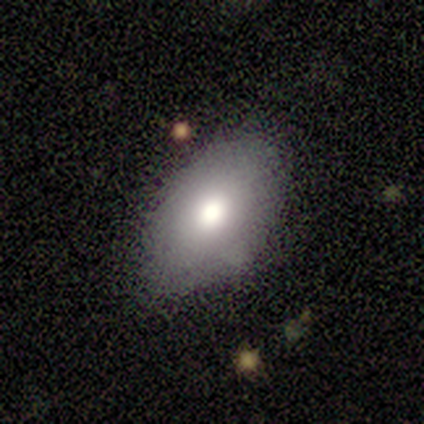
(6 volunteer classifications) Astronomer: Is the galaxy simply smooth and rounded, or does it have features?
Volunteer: smooth — 50% (runner-up: featured or disk, 33%).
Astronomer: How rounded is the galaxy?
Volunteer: in between — 100%.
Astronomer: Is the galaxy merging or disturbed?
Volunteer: none — 100%.